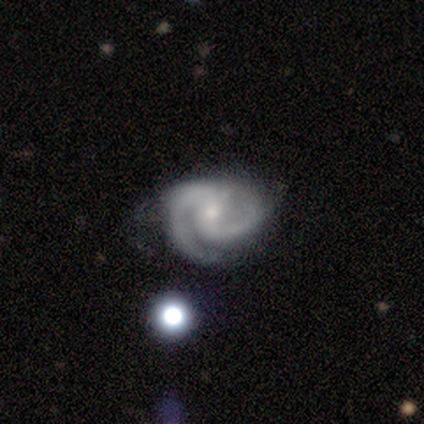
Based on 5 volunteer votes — This appears to be a featured or disk galaxy (100%) with no bar (100%), 2 (100%) medium (60%) spiral arms (100%) and a small central bulge (80%). Merging: none (100%).